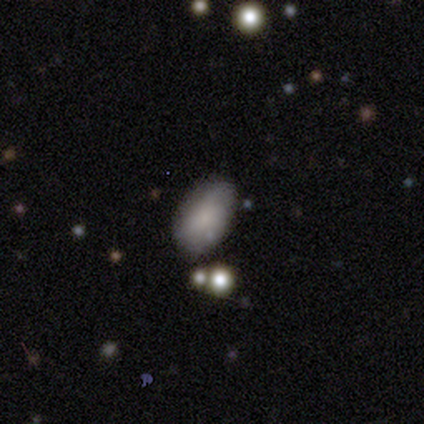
Smooth or featured? smooth (100%)
How rounded? in between (100%)
Merging? none (40%, tied with minor disturbance)